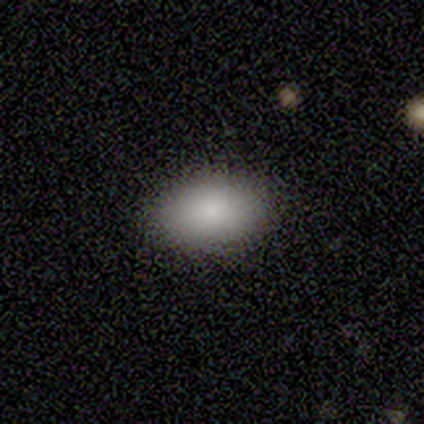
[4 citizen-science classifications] Smooth or featured?
  - smooth: 75% *
  - featured or disk: 25%
  - star or artifact: 0%
How rounded?
  - in between: 100% *
  - round: 0%
  - cigar-shaped: 0%
Merging?
  - none: 100% *
  - minor disturbance: 0%
  - major disturbance: 0%
  - merger: 0%